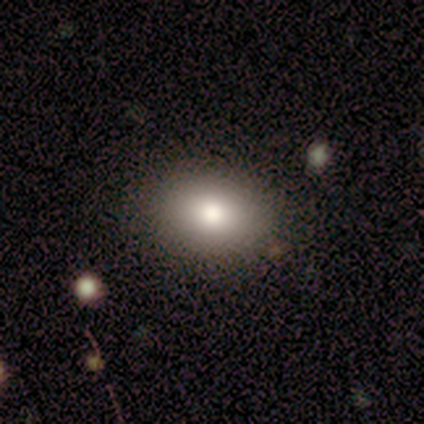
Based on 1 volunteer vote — A smooth galaxy with no disk features (100%) that is in between round and cigar-shaped (100%).

Vote fractions:
- Smooth or featured? smooth: 100% / featured or disk: 0% / star or artifact: 0%
- How rounded? in between: 100% / round: 0% / cigar-shaped: 0%
- Merging? none: 100% / minor disturbance: 0% / major disturbance: 0% / merger: 0%